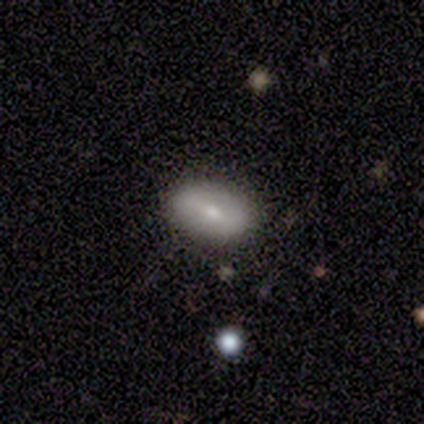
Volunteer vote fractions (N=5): Smooth or featured? smooth (60%)
How rounded? round (33%, tied with in between and cigar-shaped)
Merging? none (100%)